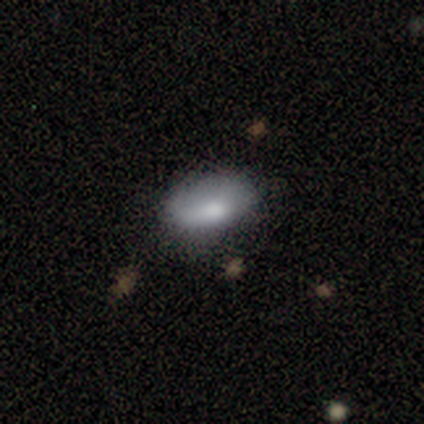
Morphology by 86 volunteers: smooth-or-featured: smooth: 71% | featured or disk: 17% | star or artifact: 12%
  how-rounded: in between: 89% | round: 7% | cigar-shaped: 5%
  merging: none: 63% | minor disturbance: 30% | major disturbance: 5% | merger: 1%